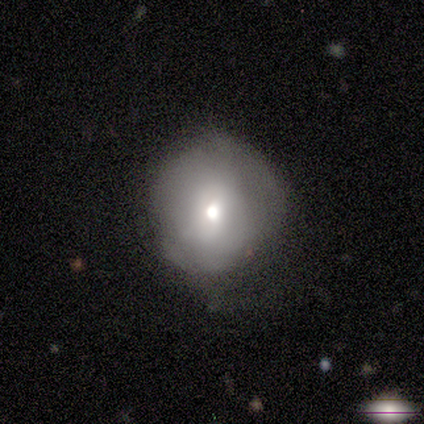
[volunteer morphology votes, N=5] Volunteers were most divided on "merging": none: 80%, minor disturbance: 20%, major disturbance: 0%, merger: 0%. More confident: smooth or featured — smooth (100%); how rounded — round (100%).